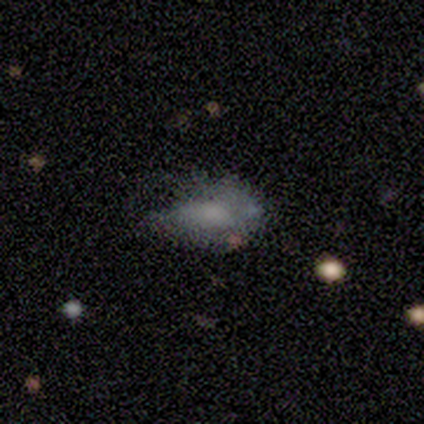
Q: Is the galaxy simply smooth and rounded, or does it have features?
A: smooth — 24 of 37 (65%).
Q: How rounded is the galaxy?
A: in between — 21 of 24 (88%).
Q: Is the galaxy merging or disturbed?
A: none — 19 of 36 (53%).